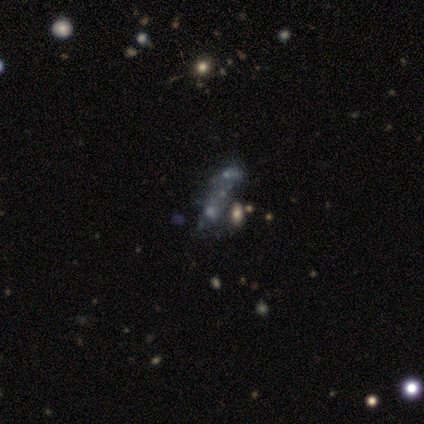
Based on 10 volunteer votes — Overall: featured or disk (60%; star or artifact 30%). Edge-on disk: no (100%). Bar: no (83%). Spiral arms: no (83%). Bulge size: small (50%, tied with none). Merging: merger (57%; none 29%).